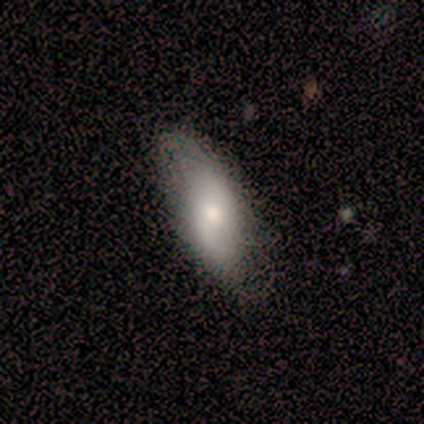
Smooth or featured?
  - smooth: 100% *
  - featured or disk: 0%
  - star or artifact: 0%
How rounded?
  - in between: 50% * (tied)
  - cigar-shaped: 50% * (tied)
  - round: 0%
Merging?
  - minor disturbance: 100% *
  - none: 0%
  - major disturbance: 0%
  - merger: 0%